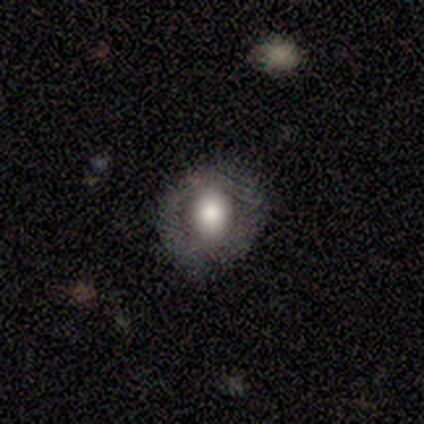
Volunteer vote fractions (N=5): featured or disk 80%, smooth 20%, star or artifact 0%. Down the decision tree: edge-on disk — no (100%); bar — no (75%); spiral arms — no (75%); bulge size — large (50%, tied with moderate); merging — none (100%).